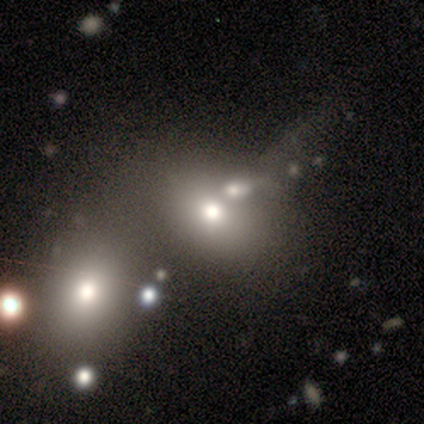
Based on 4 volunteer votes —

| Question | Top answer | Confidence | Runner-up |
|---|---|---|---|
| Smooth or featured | smooth | 50% | tied: star or artifact (50%) |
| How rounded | round | 50% | tied: in between (50%) |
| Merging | none | 50% | tied: merger (50%) |